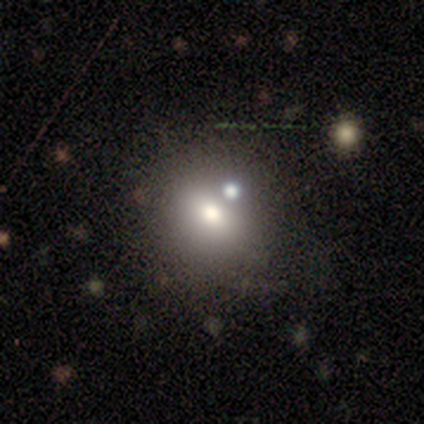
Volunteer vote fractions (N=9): This appears to be a smooth galaxy with no disk features (78%) that is in between round and cigar-shaped (57%). Merging: none (62%).